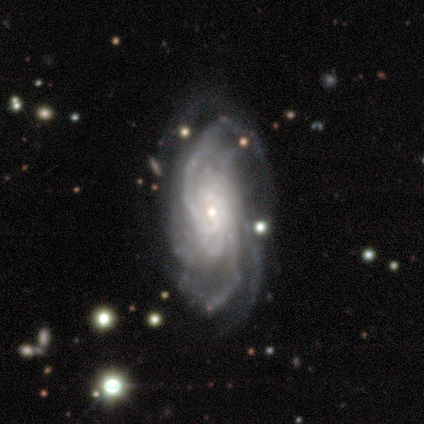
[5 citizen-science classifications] smooth-or-featured: featured or disk: 100% | smooth: 0% | star or artifact: 0%
  disk-edge-on: no: 80% | yes: 20%
    bar: no: 75% | strong: 25% | weak: 0%
    has-spiral-arms: yes: 100% | no: 0%
      spiral-winding: tight: 50% | medium: 25% | loose: 25%
      spiral-arm-count: 4: 50% | 3: 25% | more than 4: 25% | 1: 0% | 2: 0% | can't tell: 0%
    bulge-size: moderate: 50% (tied) | small: 50% (tied) | dominant: 0% | large: 0% | none: 0%
  merging: none: 80% | minor disturbance: 20% | major disturbance: 0% | merger: 0%